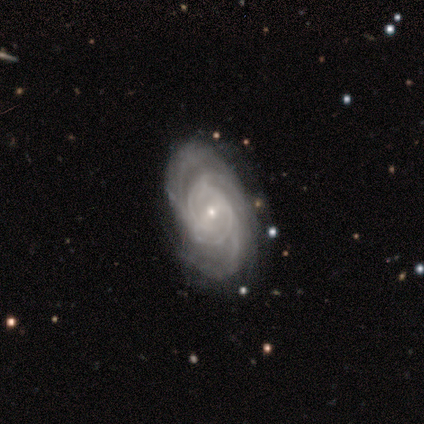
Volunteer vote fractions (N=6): A featured or disk galaxy (83%) with no bar (60%), 2 (50%) tight (75%) spiral arms (80%) and a small central bulge (100%). Merging: none (83%).